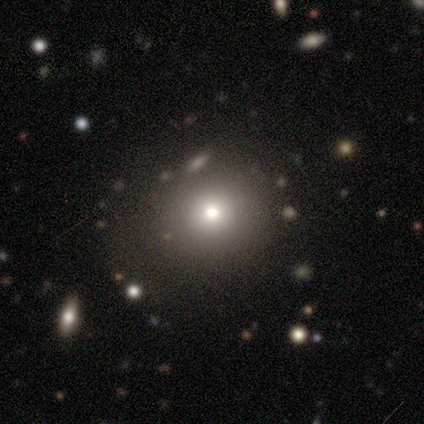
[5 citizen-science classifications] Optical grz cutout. It shows a star or artifact, not a galaxy (60%).